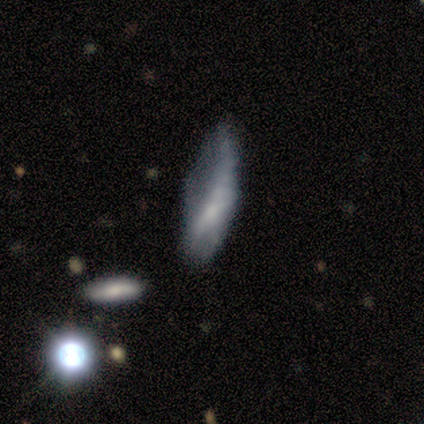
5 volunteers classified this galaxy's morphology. type=featured or disk (60%); edge-on=no (100%); bar=no (100%); spiral arms=no (67%); bulge=small (67%); merging=major disturbance (80%).